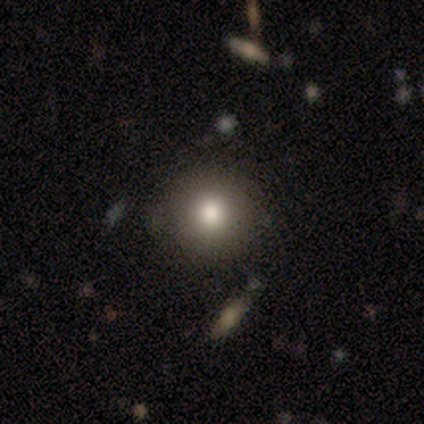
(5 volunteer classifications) This appears to be a smooth galaxy with no disk features (100%) that is round (100%). Merging: none (100%).